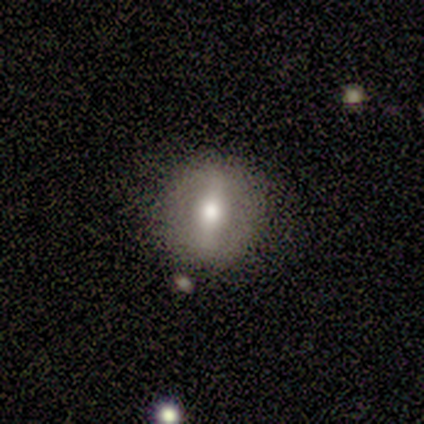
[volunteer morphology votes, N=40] smooth_or_featured: featured or disk (p=0.60) [alt: smooth p=0.33]
disk_edge_on: no (p=0.75) [alt: yes p=0.25]
bar: strong (p=0.78) [alt: weak p=0.22]
has_spiral_arms: no (p=0.72) [alt: yes p=0.28]
bulge_size: moderate (p=0.72) [alt: large p=0.17]
merging: none (p=0.97) [alt: minor disturbance p=0.03]